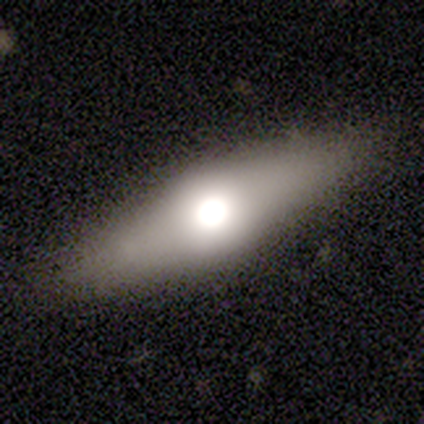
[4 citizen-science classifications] A smooth galaxy with no disk features (50%, tied with featured or disk) that is cigar-shaped (100%).

Vote fractions:
- Smooth or featured? smooth: 50% (tied) / featured or disk: 50% (tied) / star or artifact: 0%
- How rounded? cigar-shaped: 100% / round: 0% / in between: 0%
- Merging? none: 100% / minor disturbance: 0% / major disturbance: 0% / merger: 0%